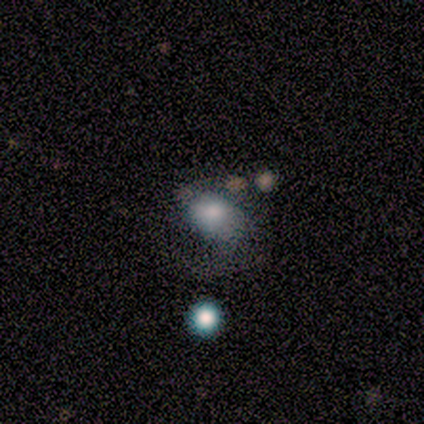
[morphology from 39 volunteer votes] Smooth or featured?
  - smooth: 67% *
  - featured or disk: 23%
  - star or artifact: 10%
How rounded?
  - in between: 58% *
  - round: 42%
  - cigar-shaped: 0%
Merging?
  - minor disturbance: 29% * (tied)
  - major disturbance: 29% * (tied)
  - none: 14%
  - merger: 9%